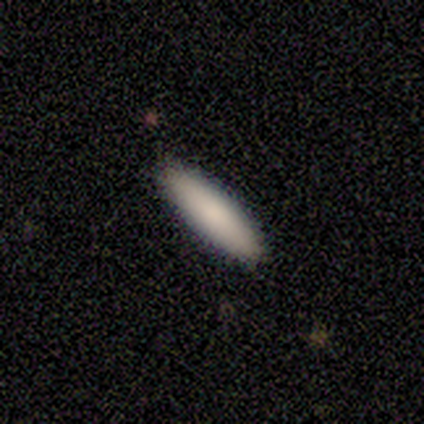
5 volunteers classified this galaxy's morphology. A smooth galaxy with no disk features (100%) that is cigar-shaped (80%). Merging: none (80%).